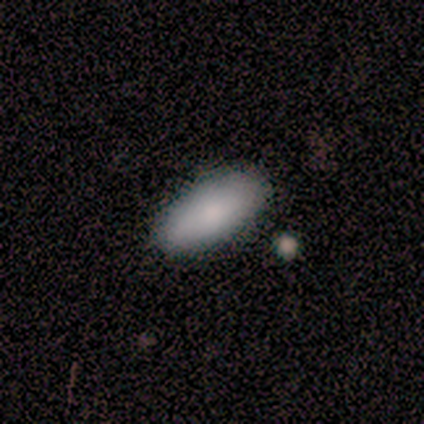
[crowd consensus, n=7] A smooth galaxy with no disk features (100%) that is in between round and cigar-shaped (100%). Merging: none (100%).